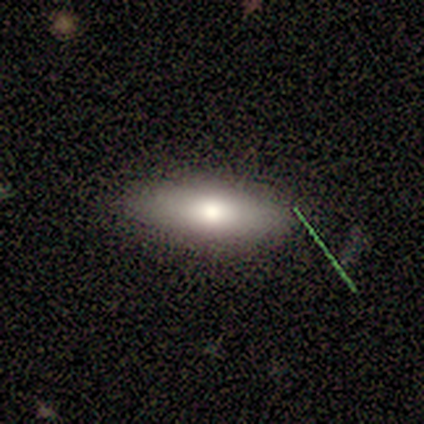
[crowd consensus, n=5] smooth-or-featured: smooth: 60% | featured or disk: 40% | star or artifact: 0%
  how-rounded: cigar-shaped: 67% | in between: 33% | round: 0%
  merging: none: 100% | minor disturbance: 0% | major disturbance: 0% | merger: 0%